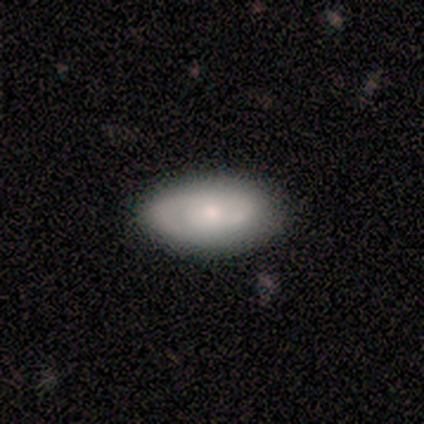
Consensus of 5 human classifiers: This is clearly a featured or disk galaxy (100%). It is clearly not viewed edge-on (80%). Bar: possibly weak (50%, tied with no). Spiral arm pattern: likely yes (75%). Spiral arm count: likely 1 (67%). Spiral winding: marginally tight (33%, tied with medium and loose). Central bulge: likely small (75%). Merging: clearly none (100%).